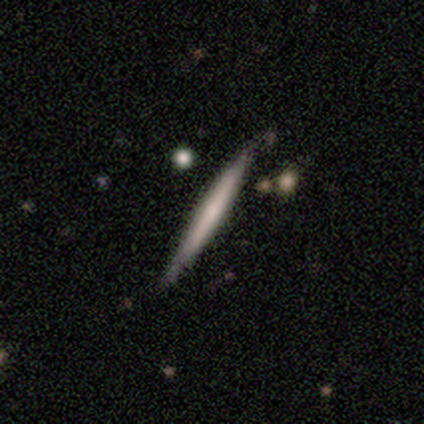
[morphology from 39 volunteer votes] Smooth or featured: featured or disk — 62% (smooth — 36%)
Edge-on disk: yes — 100%
Edge-on bulge: none — 83% (rounded — 12%)
Merging: none — 87% (minor disturbance — 8%)